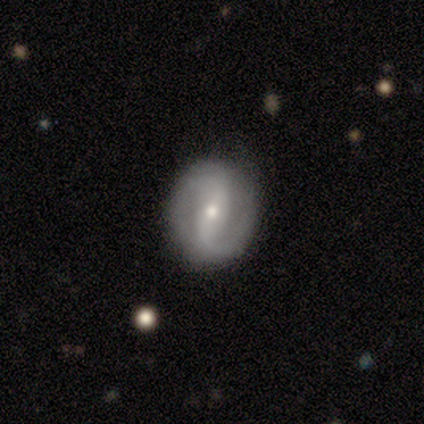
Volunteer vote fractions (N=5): Smooth or featured?
  - featured or disk: 80% *
  - star or artifact: 20%
  - smooth: 0%
Edge-on disk?
  - no: 100% *
  - yes: 0%
Bar?
  - no: 75% *
  - strong: 25%
  - weak: 0%
Spiral arms?
  - yes: 75% *
  - no: 25%
Spiral winding?
  - loose: 67% *
  - tight: 33%
  - medium: 0%
Spiral arm count?
  - 2: 100% *
  - 1: 0%
  - 3: 0%
  - 4: 0%
  - more than 4: 0%
  - can't tell: 0%
Bulge size?
  - moderate: 50% * (tied)
  - small: 50% * (tied)
  - dominant: 0%
  - large: 0%
  - none: 0%
Merging?
  - none: 100% *
  - minor disturbance: 0%
  - major disturbance: 0%
  - merger: 0%